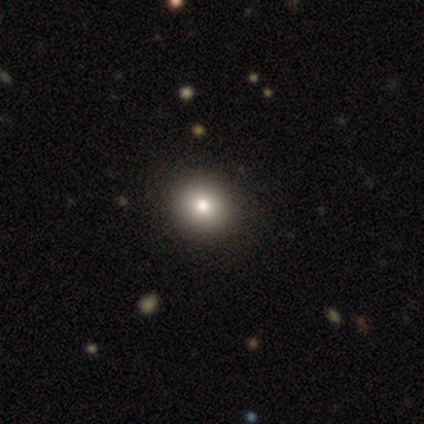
Q: Smooth or featured?
A: star or artifact (60%); runner-up: smooth (40%)